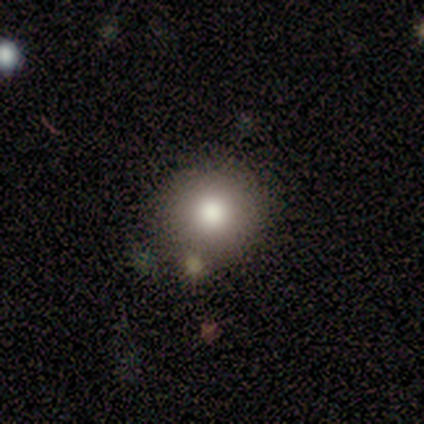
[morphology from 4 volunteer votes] This appears to be a smooth galaxy with no disk features (75%) that is round (100%). Merging: none (100%).